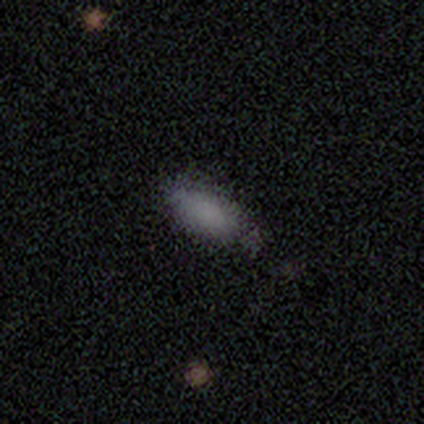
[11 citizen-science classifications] Volunteers were most divided on "merging": none: 50%, minor disturbance: 30%, major disturbance: 20%, merger: 0%. More confident: how rounded — in between (100%); smooth or featured — smooth (64%).